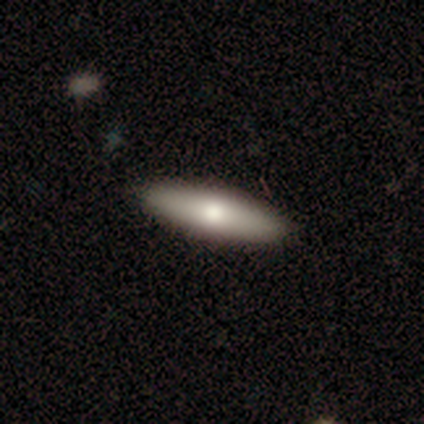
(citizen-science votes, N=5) Q: Smooth or featured?
A: featured or disk (60%); runner-up: smooth (40%)
Q: Edge-on disk?
A: yes (67%); runner-up: no (33%)
Q: Edge-on bulge?
A: rounded (100%)
Q: Merging?
A: none (100%)